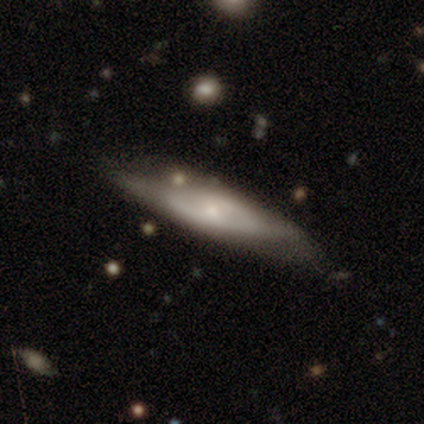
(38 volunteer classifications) Smooth or featured: featured or disk — 50% (smooth — 47%)
Edge-on disk: no — 68% (yes — 32%)
Bar: no — 100%
Spiral arms: no — 77% (yes — 23%)
Bulge size: small — 69% (moderate — 15%)
Merging: none — 57% (minor disturbance — 32%)